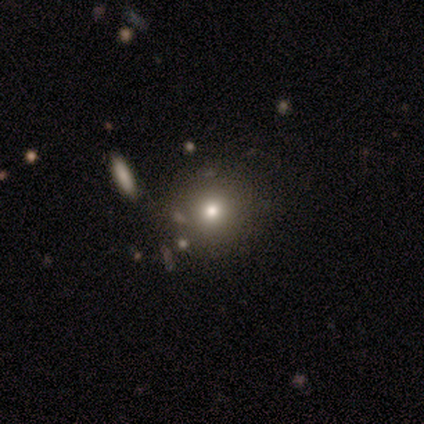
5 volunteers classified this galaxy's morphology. type=smooth (80%); roundness=round (75%); merging=none (75%).